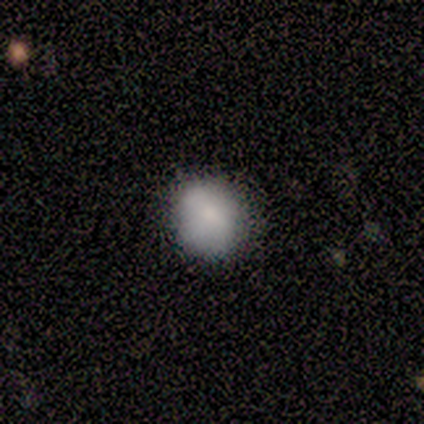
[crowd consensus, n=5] Smooth or featured: smooth — 100%
How rounded: round — 80% (in between — 20%)
Merging: none — 80% (minor disturbance — 20%)